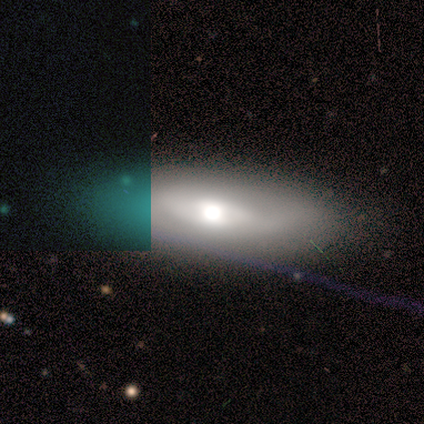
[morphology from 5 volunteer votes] featured or disk 60%, smooth 20%, star or artifact 20%. Down the decision tree: edge-on disk — no (100%); bar — no (67%); spiral arms — yes (67%); spiral arm count — 1 (50%, tied with can't tell); spiral winding — medium (100%); bulge size — moderate (67%); merging — none (75%).